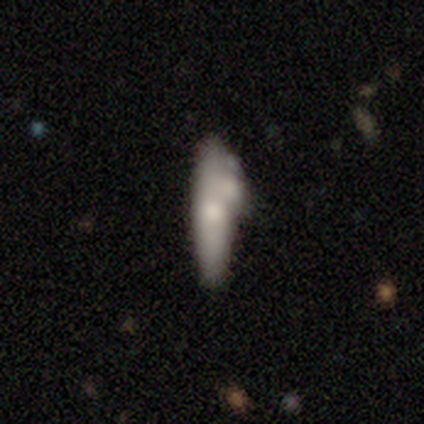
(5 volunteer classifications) Smooth or featured: smooth — 60% (featured or disk — 40%)
How rounded: cigar-shaped — 100%
Merging: merger — 60% (minor disturbance — 40%)